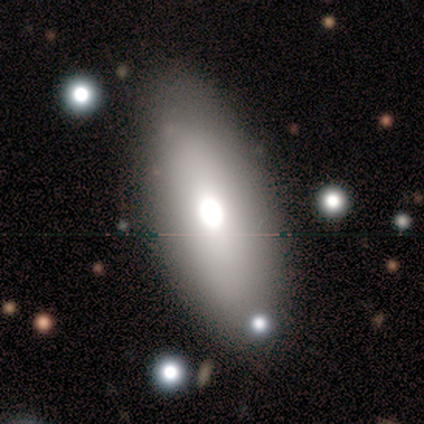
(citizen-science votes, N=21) Smooth or featured: smooth — 57% (featured or disk — 29%)
How rounded: in between — 100%
Merging: none — 83% (minor disturbance — 17%)